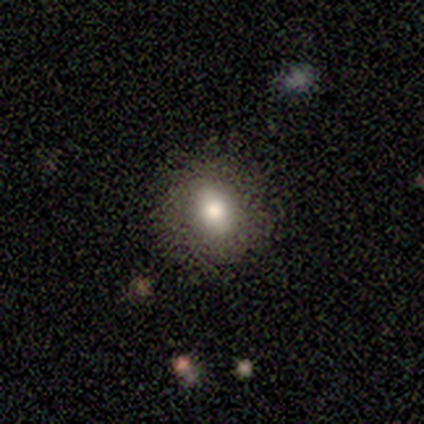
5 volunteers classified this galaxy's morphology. smooth_or_featured: smooth (p=0.60) [alt: featured or disk p=0.40]
how_rounded: round (p=0.67) [alt: in between p=0.33]
merging: none (p=0.80) [alt: minor disturbance p=0.20]